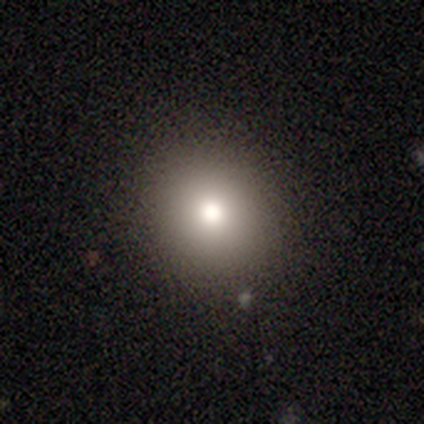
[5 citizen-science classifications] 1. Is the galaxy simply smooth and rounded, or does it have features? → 100% smooth, 0% featured or disk, 0% star or artifact.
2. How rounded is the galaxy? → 100% round, 0% in between, 0% cigar-shaped.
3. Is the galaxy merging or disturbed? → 80% none, 20% minor disturbance, 0% major disturbance, 0% merger.